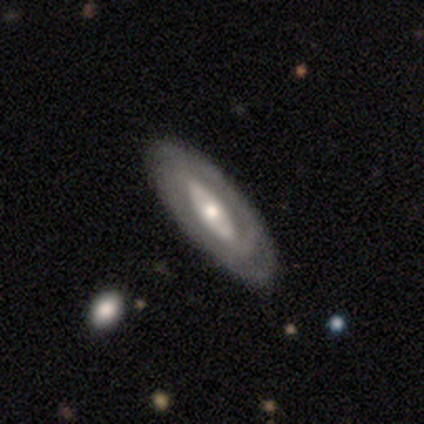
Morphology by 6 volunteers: This appears to be a featured or disk galaxy (100%) with no bar (80%), 2 (60%) tight (80%) spiral arms (100%) and a small central bulge (60%). Merging: none (100%).